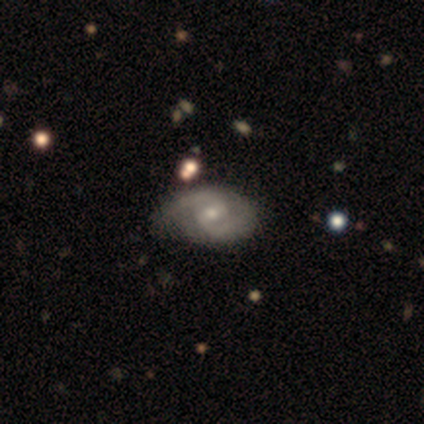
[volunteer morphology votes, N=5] Volunteers were most divided on "smooth or featured": featured or disk: 60%, smooth: 40%, star or artifact: 0%. More confident: edge-on disk — no (100%); spiral arms — yes (100%); merging — none (80%); bar — weak (67%); spiral winding — medium (67%); spiral arm count — 2 (67%); bulge size — small (67%).